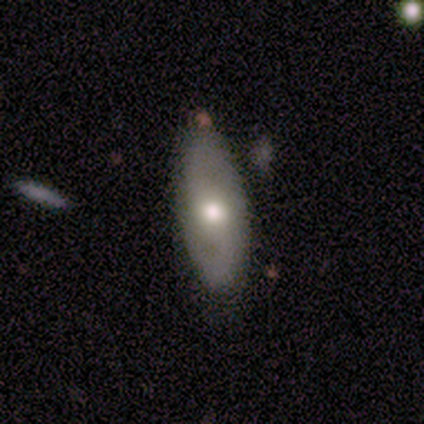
This appears to be a featured or disk galaxy (60%) with no bar (67%), 2 (100%) medium (100%) spiral arms (67%) and a moderate central bulge (100%). Merging: none (80%).